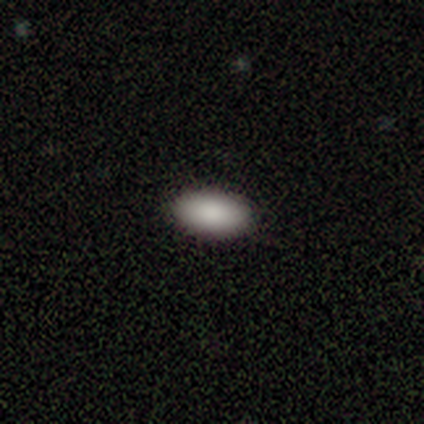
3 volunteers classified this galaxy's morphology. This appears to be a smooth galaxy with no disk features (100%) that is in between round and cigar-shaped (100%). Merging: none (100%).